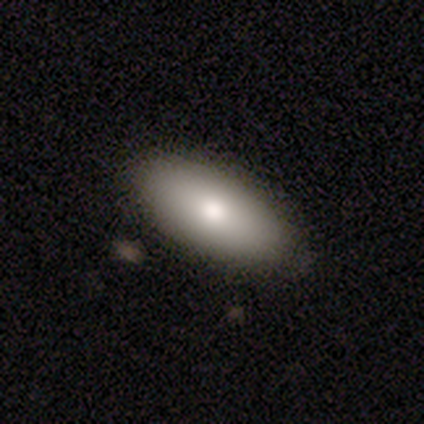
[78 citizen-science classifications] This is likely a smooth galaxy (78%). How rounded: clearly in between (95%). Merging: possibly none (46%).